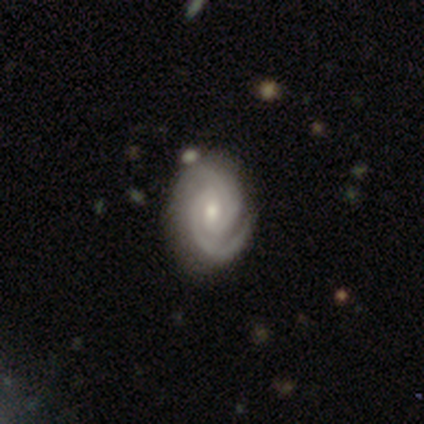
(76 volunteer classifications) A featured or disk galaxy (92%) with a weak bar (48%), 2 (91%) tight (79%) spiral arms (97%) and a moderate central bulge (59%).

Vote fractions:
- Smooth or featured? featured or disk: 92% / smooth: 5% / star or artifact: 3%
- Edge-on disk? no: 99% / yes: 1%
- Bar? weak: 48% / no: 43% / strong: 9%
- Spiral arms? yes: 97% / no: 3%
- Spiral winding? tight: 79% / medium: 19% / loose: 1%
- Spiral arm count? 2: 91% / 3: 4% / can't tell: 3% / 4: 1% / 1: 0% / more than 4: 0%
- Bulge size? moderate: 59% / small: 38% / large: 1% / none: 1% / dominant: 0%
- Merging? none: 43% / minor disturbance: 7% / major disturbance: 1% / merger: 1%